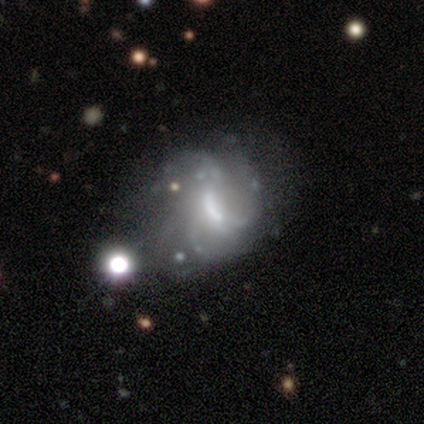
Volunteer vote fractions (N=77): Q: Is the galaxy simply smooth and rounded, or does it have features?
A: featured or disk — 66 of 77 (86%).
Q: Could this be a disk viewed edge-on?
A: no — 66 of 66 (100%).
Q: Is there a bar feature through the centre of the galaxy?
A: strong — 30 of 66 (45%).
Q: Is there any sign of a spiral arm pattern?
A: yes — 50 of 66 (76%).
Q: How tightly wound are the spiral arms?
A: medium — 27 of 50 (54%).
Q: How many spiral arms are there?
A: can't tell — 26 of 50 (52%).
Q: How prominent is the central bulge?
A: moderate — 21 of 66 (32%).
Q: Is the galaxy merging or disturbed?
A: minor disturbance — 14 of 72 (19%).